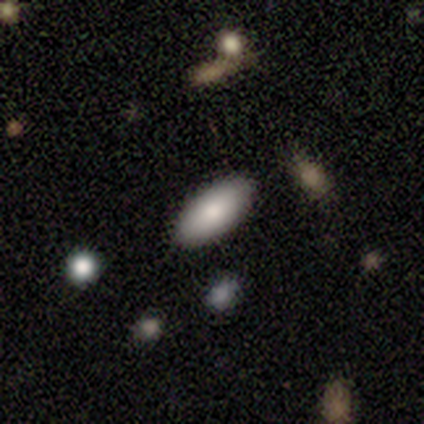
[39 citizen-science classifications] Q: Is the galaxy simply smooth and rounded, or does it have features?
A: smooth — 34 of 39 (87%).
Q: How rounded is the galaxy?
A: in between — 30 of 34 (88%).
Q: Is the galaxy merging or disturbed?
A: none — 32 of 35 (91%).